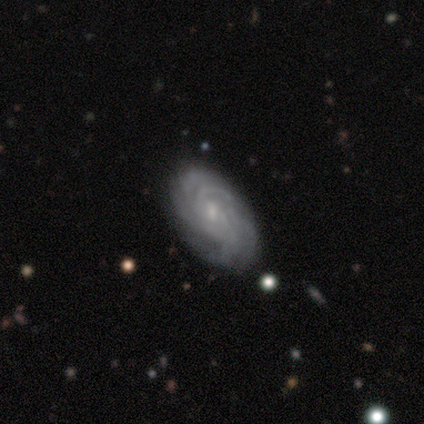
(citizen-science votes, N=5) This is clearly a featured or disk galaxy (100%). It is clearly not viewed edge-on (100%). Bar: likely weak (60%). Spiral arm pattern: clearly yes (100%). Spiral arm count: marginally more than 4 (40%). Spiral winding: clearly tight (80%). Central bulge: marginally small (40%, tied with none). Merging: clearly none (80%).